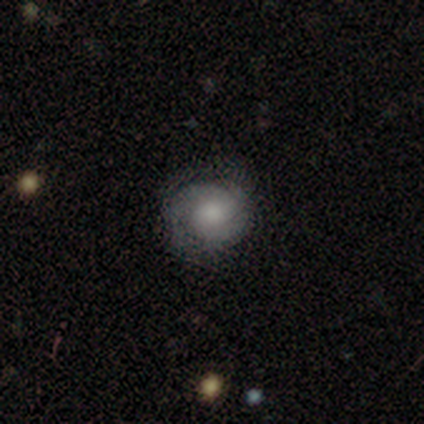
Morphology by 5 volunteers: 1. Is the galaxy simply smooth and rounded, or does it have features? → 60% featured or disk, 40% smooth, 0% star or artifact.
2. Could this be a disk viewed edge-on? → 100% no, 0% yes.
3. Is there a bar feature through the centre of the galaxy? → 67% no, 33% strong, 0% weak.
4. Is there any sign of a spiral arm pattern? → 100% yes, 0% no.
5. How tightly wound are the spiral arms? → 67% tight, 33% medium, 0% loose.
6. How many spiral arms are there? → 67% 2, 33% 3, 0% 1, 0% 4, 0% more than 4, 0% can't tell.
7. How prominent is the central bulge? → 33% large (tied), 33% moderate (tied), 33% none (tied), 0% dominant, 0% small.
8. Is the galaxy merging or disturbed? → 60% none, 40% minor disturbance, 0% major disturbance, 0% merger.